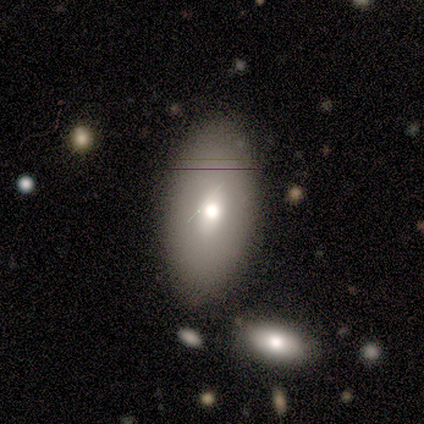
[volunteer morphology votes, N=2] smooth_or_featured: smooth (p=1.00)
how_rounded: in between (p=1.00)
merging: none (p=0.50) [tied with: minor disturbance p=0.50]